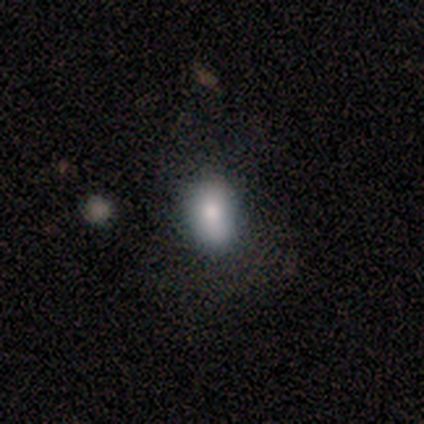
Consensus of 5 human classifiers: Smooth or featured? 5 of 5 (100%) said smooth. How rounded? 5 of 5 (100%) said in between. Merging? 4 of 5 (80%) said none.